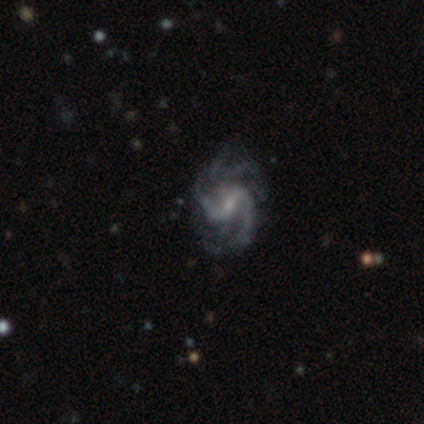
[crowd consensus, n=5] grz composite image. It shows a featured or disk galaxy (100%) with a strong bar (40%, tied with weak), 3 (40%, tied with can't tell) medium (80%) spiral arms (100%) and a small central bulge (60%). Merging: none (100%).